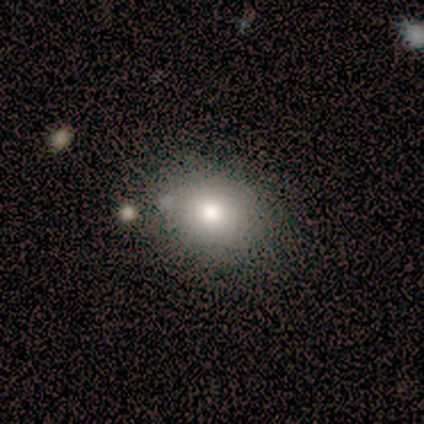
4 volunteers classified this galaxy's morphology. A smooth galaxy with no disk features (50%) that is round (100%).

Vote fractions:
- Smooth or featured? smooth: 50% / featured or disk: 25% / star or artifact: 25%
- How rounded? round: 100% / in between: 0% / cigar-shaped: 0%
- Merging? none: 100% / minor disturbance: 0% / major disturbance: 0% / merger: 0%